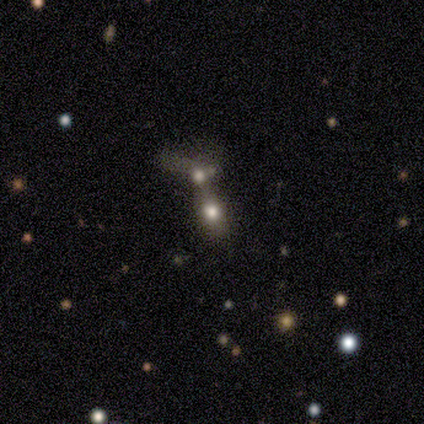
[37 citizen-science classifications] smooth 49%, featured or disk 38%, star or artifact 14%. Down the decision tree: how rounded — in between (61%); merging — merger (88%).